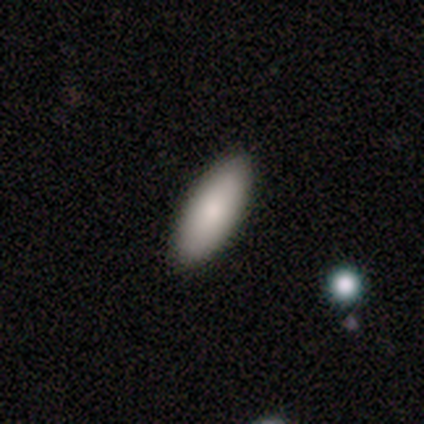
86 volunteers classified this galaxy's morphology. Smooth or featured? smooth (87%)
How rounded? in between (67%)
Merging? none (86%)